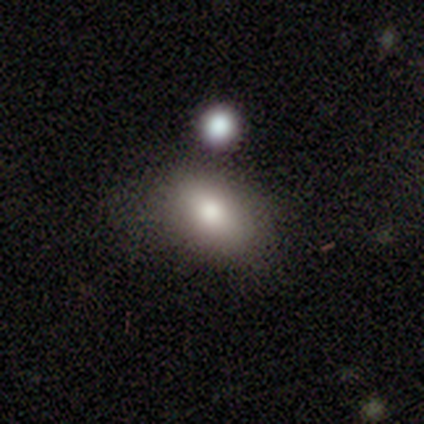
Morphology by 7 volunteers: Smooth or featured? 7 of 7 (100%) said smooth. How rounded? 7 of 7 (100%) said in between. Merging? 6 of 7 (86%) said none.